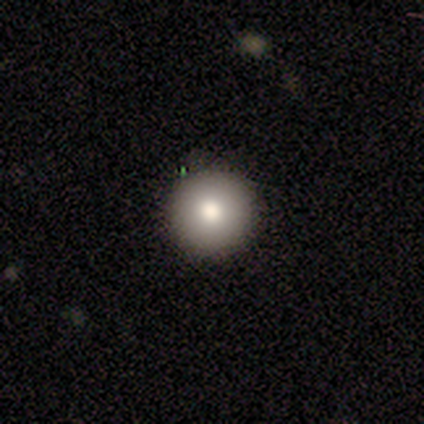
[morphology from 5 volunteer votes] A smooth galaxy with no disk features (80%) that is round (100%). Merging: none (100%).